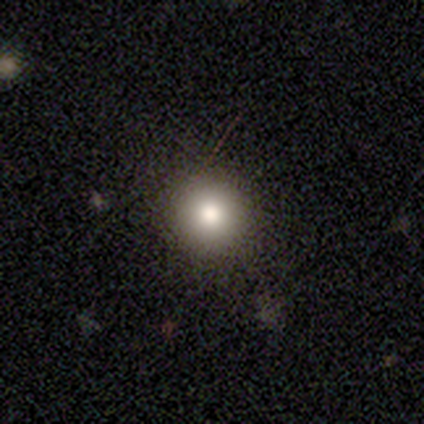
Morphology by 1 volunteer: A smooth galaxy with no disk features (100%) that is round (100%).

Vote fractions:
- Smooth or featured? smooth: 100% / featured or disk: 0% / star or artifact: 0%
- How rounded? round: 100% / in between: 0% / cigar-shaped: 0%
- Merging? none: 100% / minor disturbance: 0% / major disturbance: 0% / merger: 0%